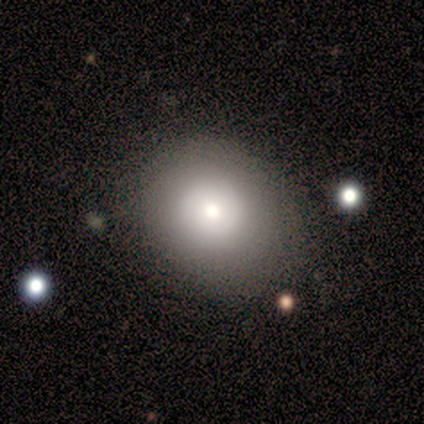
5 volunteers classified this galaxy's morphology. This appears to be a smooth galaxy with no disk features (80%) that is round (50%, tied with in between). Merging: none (50%).